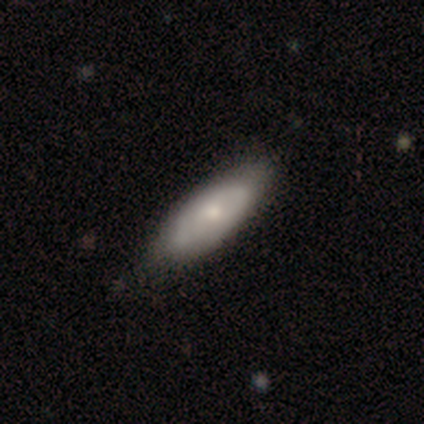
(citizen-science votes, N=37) Smooth or featured?
  - smooth: 62% *
  - featured or disk: 35%
  - star or artifact: 3%
How rounded?
  - in between: 87% *
  - cigar-shaped: 13%
  - round: 0%
Merging?
  - none: 78% *
  - minor disturbance: 19%
  - merger: 3%
  - major disturbance: 0%